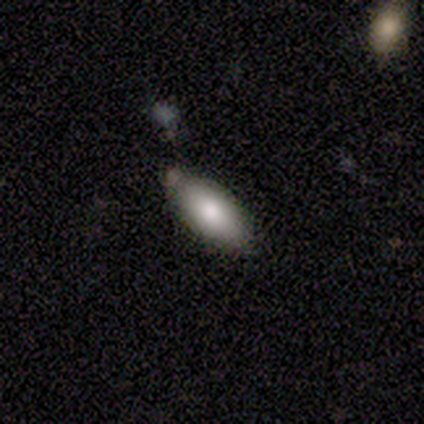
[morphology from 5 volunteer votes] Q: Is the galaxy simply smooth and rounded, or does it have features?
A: smooth — 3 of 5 (60%).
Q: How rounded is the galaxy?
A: in between — 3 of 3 (100%).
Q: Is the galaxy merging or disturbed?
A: none — 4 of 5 (80%).